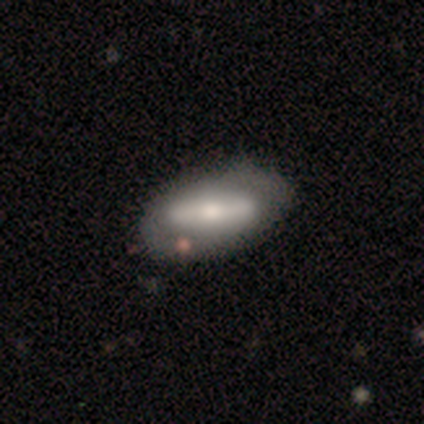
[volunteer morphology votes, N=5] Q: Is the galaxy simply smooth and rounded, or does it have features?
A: smooth — 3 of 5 (60%).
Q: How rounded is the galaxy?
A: in between — 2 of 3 (67%).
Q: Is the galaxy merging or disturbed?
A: none — 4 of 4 (100%).